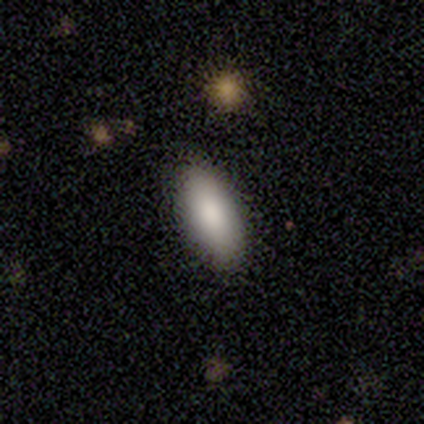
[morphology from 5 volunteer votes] A smooth galaxy with no disk features (60%) that is in between round and cigar-shaped (100%).

Vote fractions:
- Smooth or featured? smooth: 60% / star or artifact: 40% / featured or disk: 0%
- How rounded? in between: 100% / round: 0% / cigar-shaped: 0%
- Merging? none: 67% / minor disturbance: 33% / major disturbance: 0% / merger: 0%